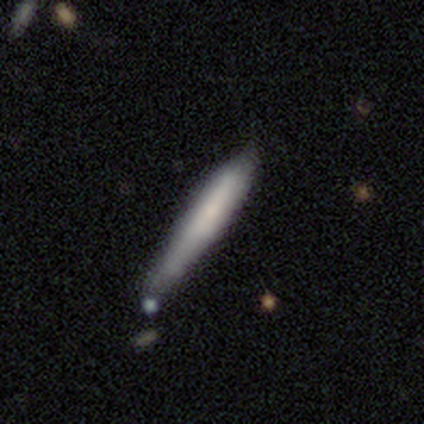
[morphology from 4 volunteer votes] This appears to be a smooth galaxy with no disk features (50%, tied with featured or disk) that is cigar-shaped (100%). Merging: minor disturbance (75%).